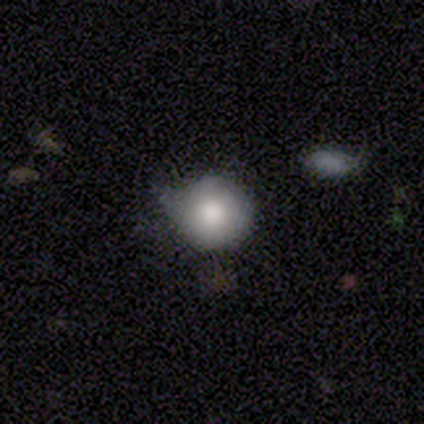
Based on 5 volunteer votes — smooth_or_featured: smooth (p=1.00)
how_rounded: round (p=1.00)
merging: minor disturbance (p=0.60) [alt: none p=0.40]